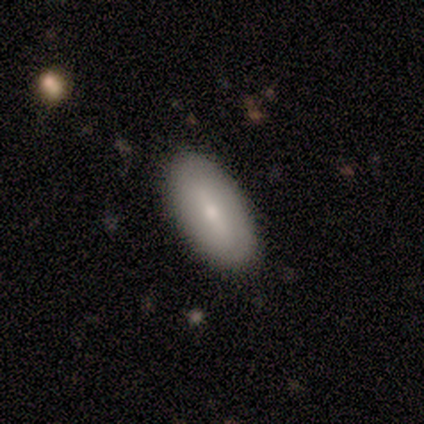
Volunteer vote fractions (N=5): Morphology: type=smooth (60%); roundness=in between (100%); merging=none (80%).